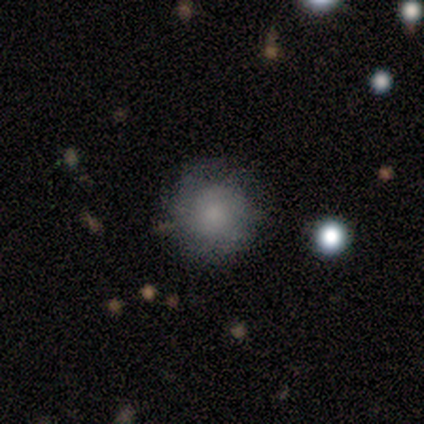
This appears to be a smooth galaxy with no disk features (59%) that is round (100%). Merging: none (73%).